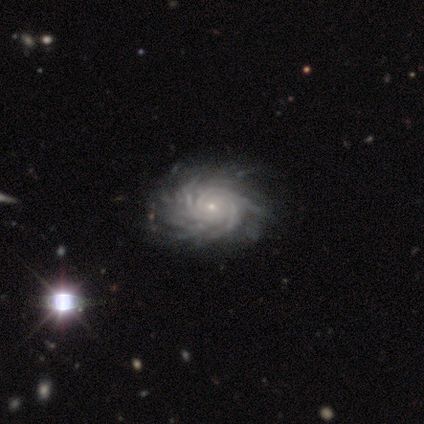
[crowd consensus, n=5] smooth-or-featured: featured or disk: 60% | smooth: 20% | star or artifact: 20%
  disk-edge-on: no: 100% | yes: 0%
    bar: no: 67% | weak: 33% | strong: 0%
    has-spiral-arms: yes: 100% | no: 0%
      spiral-winding: tight: 100% | medium: 0% | loose: 0%
      spiral-arm-count: more than 4: 100% | 1: 0% | 2: 0% | 3: 0% | 4: 0% | can't tell: 0%
    bulge-size: small: 100% | dominant: 0% | large: 0% | moderate: 0% | none: 0%
  merging: none: 50% | major disturbance: 25% | merger: 25% | minor disturbance: 0%